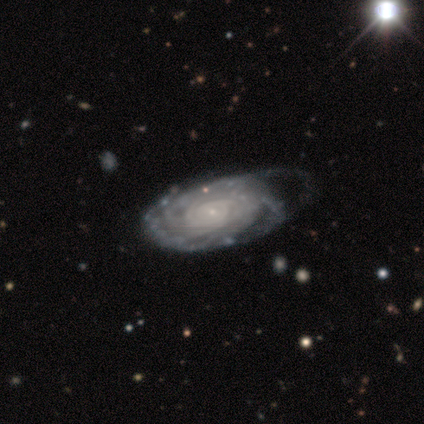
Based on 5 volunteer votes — Overall: featured or disk (100%). Edge-on disk: no (100%). Bar: no (80%). Spiral arms: yes (100%). Spiral arm count: can't tell (80%). Spiral winding: tight (60%; loose 40%). Bulge size: small (100%). Merging: minor disturbance (60%; none 20%).